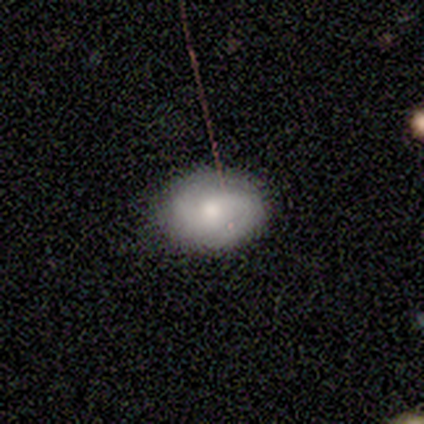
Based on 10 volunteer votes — Smooth or featured? smooth (70%)
How rounded? in between (71%)
Merging? none (80%)